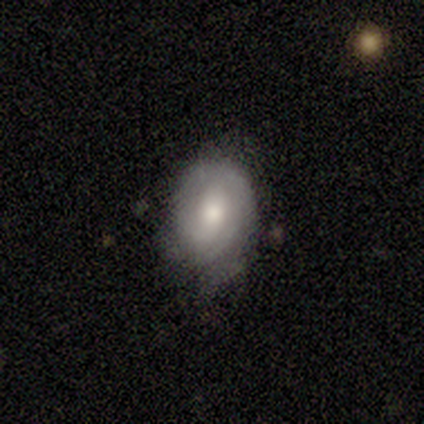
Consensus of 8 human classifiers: Smooth or featured? featured or disk (88%)
Edge-on disk? no (100%)
Bar? no (57%)
Spiral arms? yes (57%)
Spiral winding? loose (50%)
Spiral arm count? can't tell (50%)
Bulge size? moderate (43%)
Merging? none (50%)